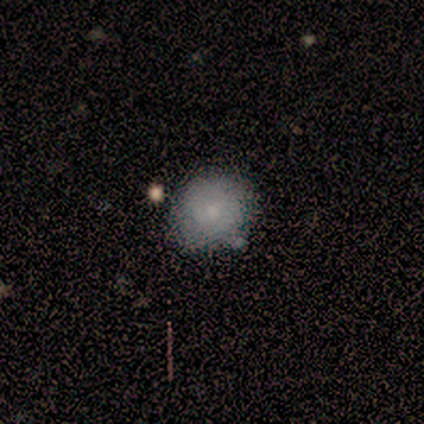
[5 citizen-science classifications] Smooth or featured: smooth — 100%
How rounded: round — 100%
Merging: none — 100%